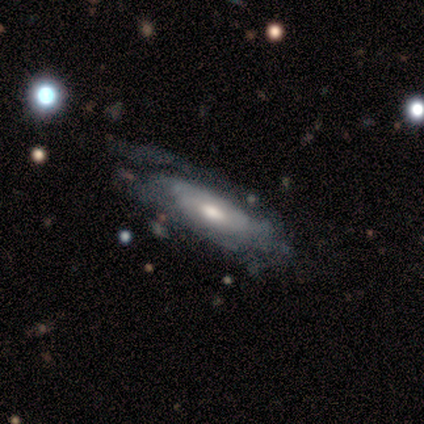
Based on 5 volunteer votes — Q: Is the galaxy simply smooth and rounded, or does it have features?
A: featured or disk — 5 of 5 (100%).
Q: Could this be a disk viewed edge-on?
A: no — 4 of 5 (80%).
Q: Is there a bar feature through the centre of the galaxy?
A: no — 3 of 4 (75%).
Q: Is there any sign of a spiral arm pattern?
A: yes — 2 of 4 (50%, tied with no).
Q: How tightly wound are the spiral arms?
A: tight — 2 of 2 (100%).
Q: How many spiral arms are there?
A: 1 — 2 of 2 (100%).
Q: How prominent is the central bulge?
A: moderate — 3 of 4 (75%).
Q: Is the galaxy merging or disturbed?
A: none — 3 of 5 (60%).